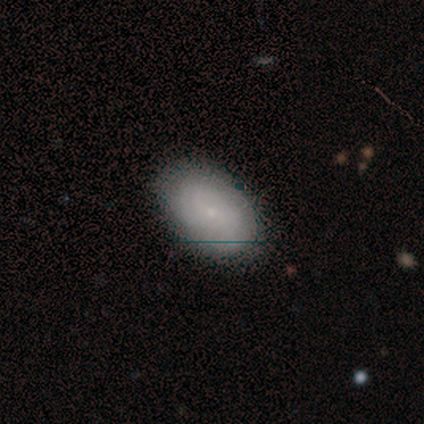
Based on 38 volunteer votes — Smooth or featured? 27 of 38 (71%) said smooth. How rounded? 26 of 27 (96%) said in between. Merging? 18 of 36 (50%) said none.